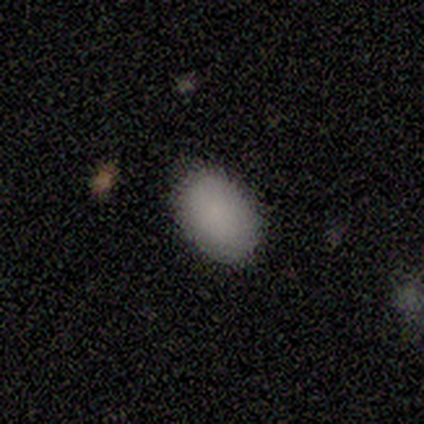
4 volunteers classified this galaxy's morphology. Q: Smooth or featured?
A: smooth (100%)
Q: How rounded?
A: round (50%); tied with: in between (50%)
Q: Merging?
A: none (100%)